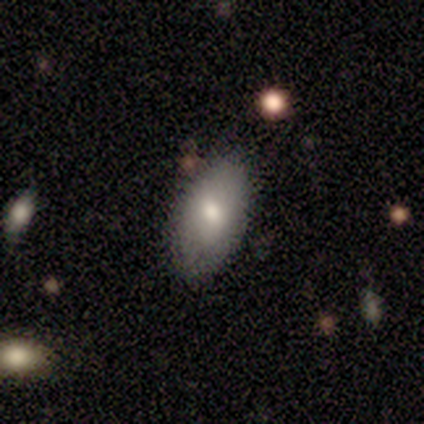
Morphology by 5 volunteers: A smooth galaxy with no disk features (80%) that is in between round and cigar-shaped (100%).

Vote fractions:
- Smooth or featured? smooth: 80% / featured or disk: 20% / star or artifact: 0%
- How rounded? in between: 100% / round: 0% / cigar-shaped: 0%
- Merging? none: 100% / minor disturbance: 0% / major disturbance: 0% / merger: 0%